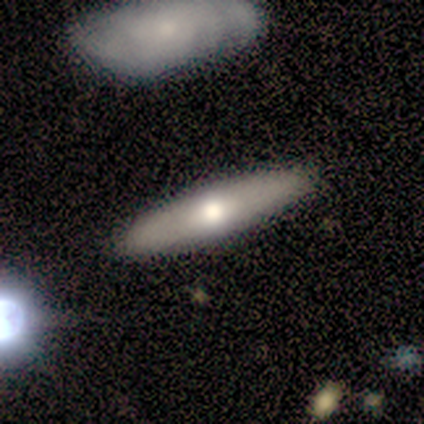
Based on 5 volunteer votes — Morphology: type=smooth (60%); roundness=cigar-shaped (100%); merging=none (100%).